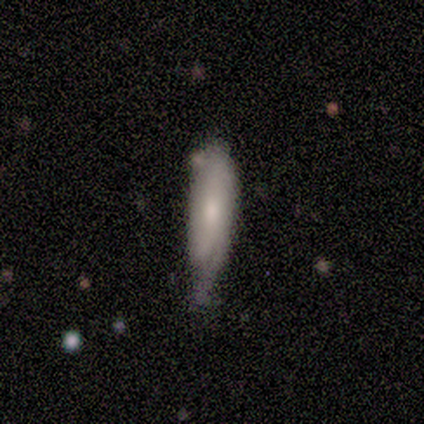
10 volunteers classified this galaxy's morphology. smooth-or-featured: smooth: 60% | featured or disk: 30% | star or artifact: 10%
  how-rounded: in between: 83% | cigar-shaped: 17% | round: 0%
  merging: minor disturbance: 67% | none: 33% | major disturbance: 0% | merger: 0%